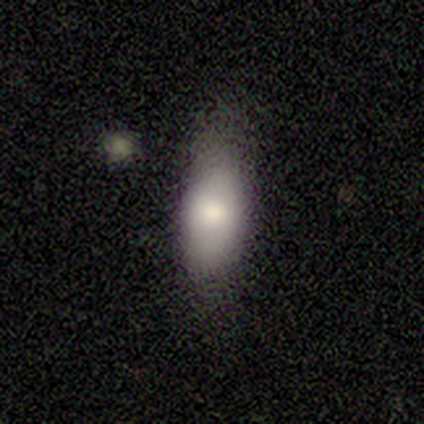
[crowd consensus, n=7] Smooth or featured: smooth — 86% (featured or disk — 14%)
How rounded: in between — 100%
Merging: none — 57% (minor disturbance — 43%)